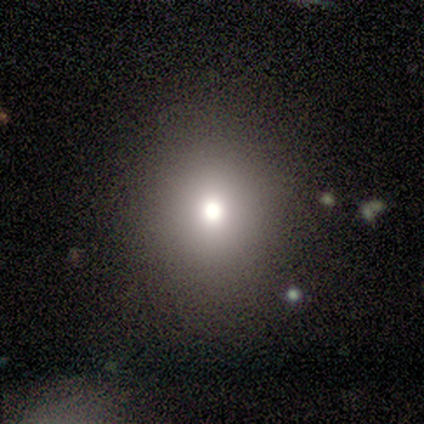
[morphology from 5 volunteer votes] Smooth or featured: smooth — 80% (featured or disk — 20%)
How rounded: round — 100%
Merging: none — 100%